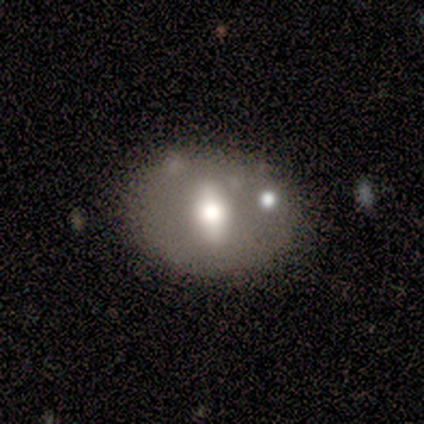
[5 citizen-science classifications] Volunteers were most divided on "how rounded" (2-way tie): round: 50%, in between: 50%, cigar-shaped: 0%. More confident: smooth or featured — smooth (80%); merging — none (80%).